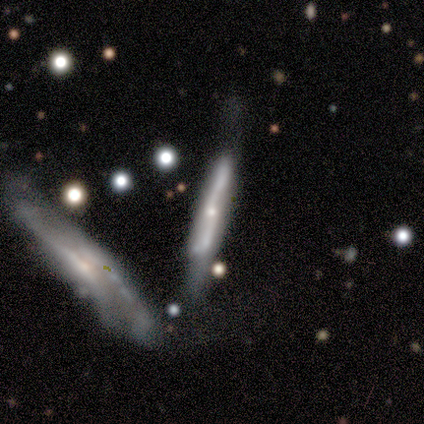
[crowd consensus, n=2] smooth-or-featured: smooth: 50% (tied) | featured or disk: 50% (tied) | star or artifact: 0%
  how-rounded: cigar-shaped: 100% | round: 0% | in between: 0%
  merging: none: 50% (tied) | major disturbance: 50% (tied) | minor disturbance: 0% | merger: 0%